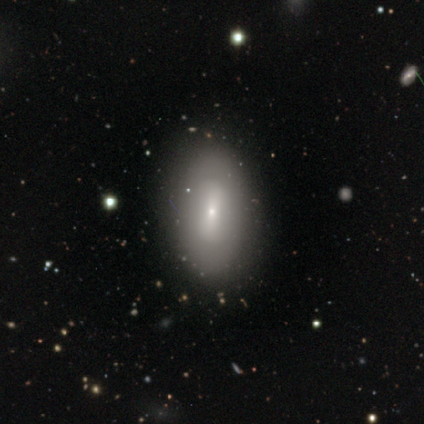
This appears to be a smooth galaxy with no disk features (62%) that is in between round and cigar-shaped (88%). Merging: none (75%).